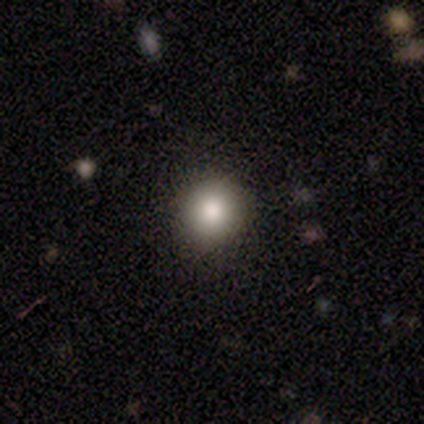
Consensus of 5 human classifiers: Smooth or featured: smooth — 100%
How rounded: round — 80% (in between — 20%)
Merging: none — 100%